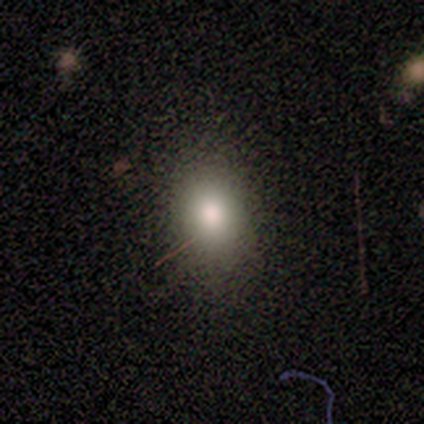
Overall: smooth (87%). How rounded: in between (66%; round 34%). Merging: none (86%).